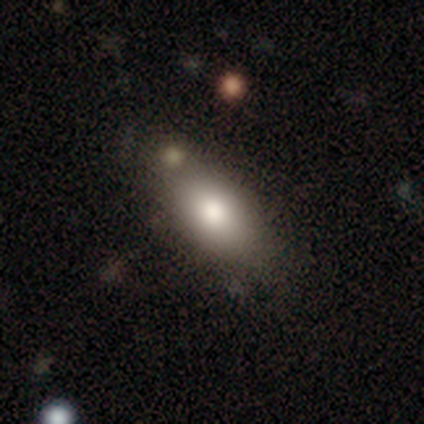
Smooth or featured: smooth — 80% (star or artifact — 20%)
How rounded: in between — 100%
Merging: none — 75% (minor disturbance — 25%)